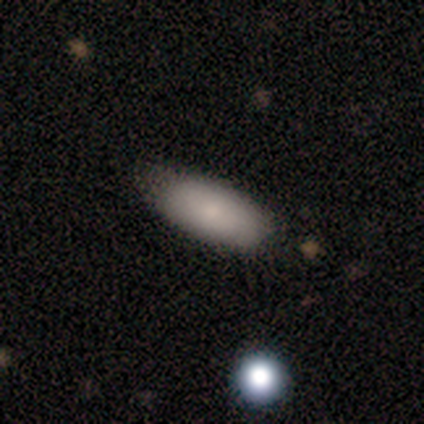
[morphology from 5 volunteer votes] Smooth or featured? 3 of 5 (60%) said smooth. How rounded? 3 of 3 (100%) said in between. Merging? 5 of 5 (100%) said none.